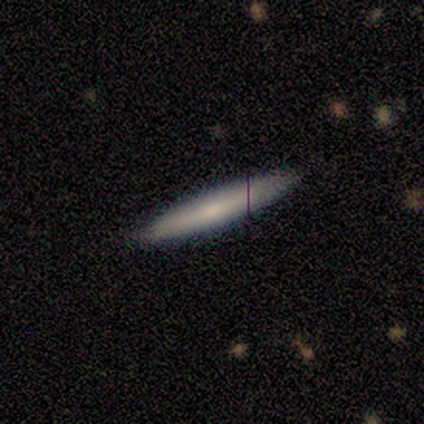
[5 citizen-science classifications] Smooth or featured? 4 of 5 (80%) said smooth. How rounded? 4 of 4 (100%) said cigar-shaped. Merging? 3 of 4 (75%) said none.